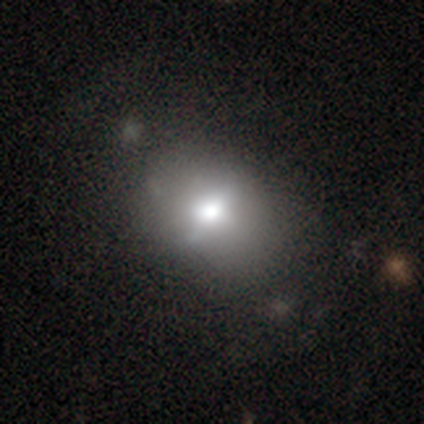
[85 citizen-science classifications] Smooth or featured?
  - smooth: 48% *
  - featured or disk: 38%
  - star or artifact: 14%
How rounded?
  - in between: 61% *
  - round: 39%
  - cigar-shaped: 0%
Merging?
  - none: 71% *
  - minor disturbance: 22%
  - major disturbance: 5%
  - merger: 1%